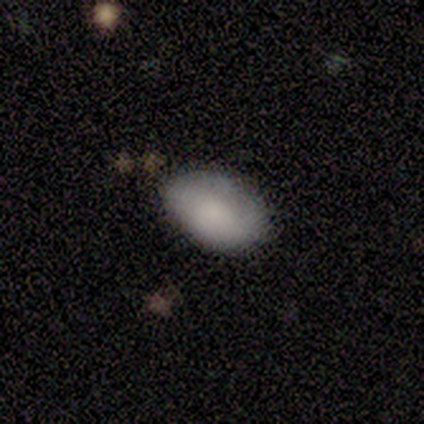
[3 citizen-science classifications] Volunteers were most divided on "merging": none: 67%, minor disturbance: 33%, major disturbance: 0%, merger: 0%. More confident: smooth or featured — smooth (100%); how rounded — in between (100%).